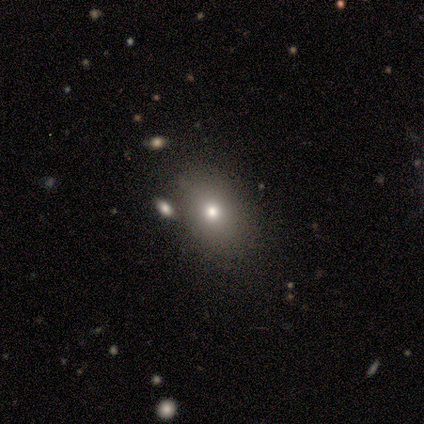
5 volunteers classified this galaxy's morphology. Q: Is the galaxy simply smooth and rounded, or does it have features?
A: smooth — 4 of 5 (80%).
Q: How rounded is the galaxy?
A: round — 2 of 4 (50%, tied with in between).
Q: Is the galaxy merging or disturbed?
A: none — 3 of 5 (60%).